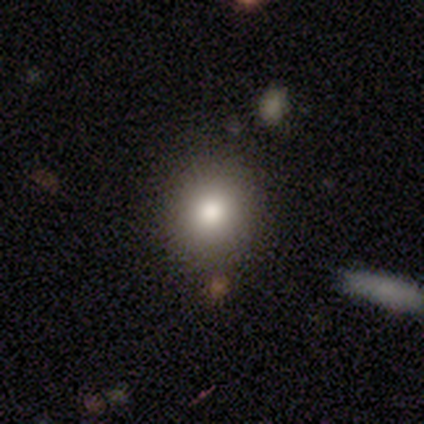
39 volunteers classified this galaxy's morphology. A smooth galaxy with no disk features (72%) that is round (75%). Merging: none (97%).